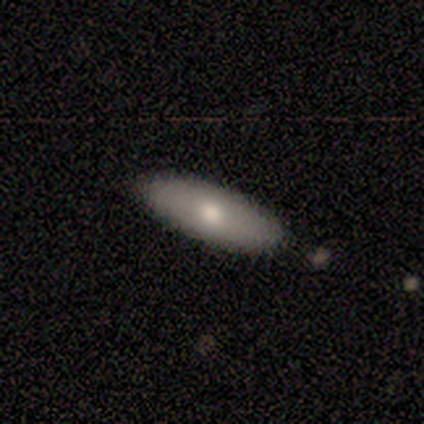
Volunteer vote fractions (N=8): Smooth or featured? smooth (62%)
How rounded? in between (80%)
Merging? none (88%)